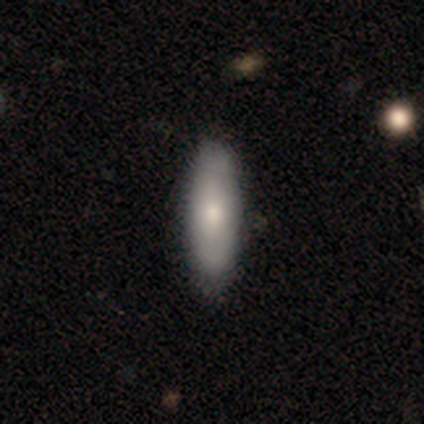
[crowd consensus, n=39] Smooth or featured? smooth (85%)
How rounded? cigar-shaped (61%)
Merging? none (89%)